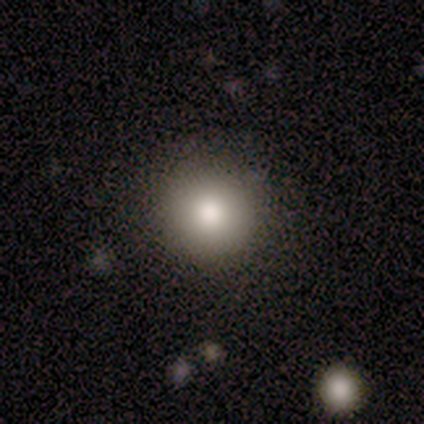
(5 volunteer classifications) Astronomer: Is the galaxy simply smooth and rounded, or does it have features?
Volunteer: smooth — 80%.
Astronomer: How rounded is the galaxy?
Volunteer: round — 100%.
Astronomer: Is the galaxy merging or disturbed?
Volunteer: none — 75%.